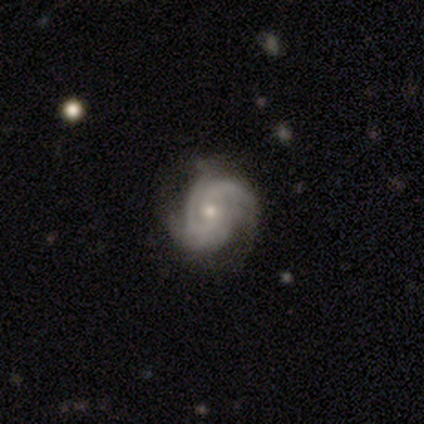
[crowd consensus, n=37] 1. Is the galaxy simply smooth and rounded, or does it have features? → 92% featured or disk, 5% smooth, 3% star or artifact.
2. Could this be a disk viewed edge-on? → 94% no, 6% yes.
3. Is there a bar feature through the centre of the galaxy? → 72% no, 22% weak, 6% strong.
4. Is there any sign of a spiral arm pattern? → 94% yes, 6% no.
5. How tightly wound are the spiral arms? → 73% tight, 23% medium, 3% loose.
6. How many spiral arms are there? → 40% 3, 33% 2, 23% can't tell, 3% 1, 0% 4, 0% more than 4.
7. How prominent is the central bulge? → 59% small, 34% moderate, 3% large, 3% none, 0% dominant.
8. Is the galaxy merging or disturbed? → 61% none, 28% minor disturbance, 6% major disturbance, 6% merger.